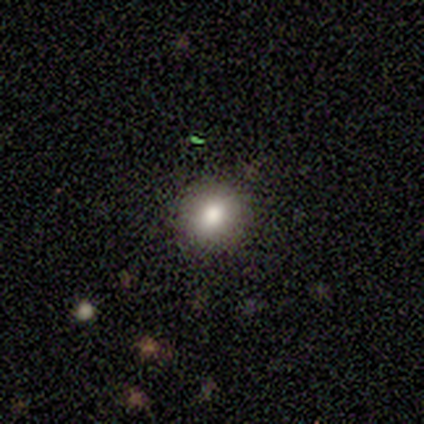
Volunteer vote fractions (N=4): This appears to be a smooth galaxy with no disk features (75%) that is round (67%). Merging: none (75%).